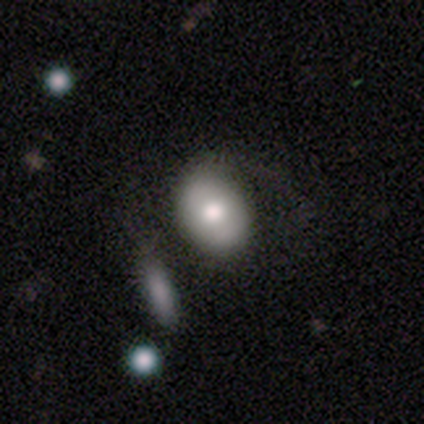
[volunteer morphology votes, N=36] A smooth galaxy with no disk features (69%) that is in between round and cigar-shaped (64%).

Vote fractions:
- Smooth or featured? smooth: 69% / featured or disk: 31% / star or artifact: 0%
- How rounded? in between: 64% / round: 36% / cigar-shaped: 0%
- Merging? merger: 25% / none: 22% / minor disturbance: 17% / major disturbance: 8%